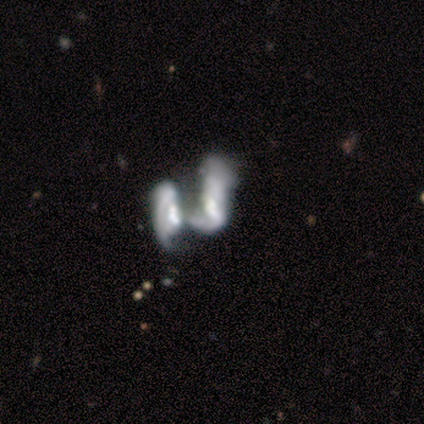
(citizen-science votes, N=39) smooth_or_featured: featured or disk (p=0.92) [alt: star or artifact p=0.05]
disk_edge_on: no (p=0.94) [alt: yes p=0.06]
bar: no (p=0.68) [alt: weak p=0.26]
has_spiral_arms: yes (p=0.56) [alt: no p=0.44]
spiral_winding: loose (p=0.53) [alt: medium p=0.37]
spiral_arm_count: can't tell (p=0.47) [alt: 2 p=0.42]
bulge_size: moderate (p=0.32) [alt: large p=0.24]
merging: merger (p=0.51) [alt: major disturbance p=0.16]